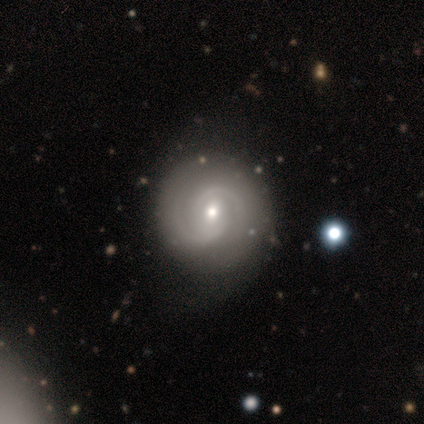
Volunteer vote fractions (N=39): featured or disk 90%, smooth 10%, star or artifact 0%. Down the decision tree: edge-on disk — no (100%); bar — no (49%); spiral arms — yes (94%); spiral arm count — 2 (85%); spiral winding — tight (52%); bulge size — moderate (51%); merging — none (72%).